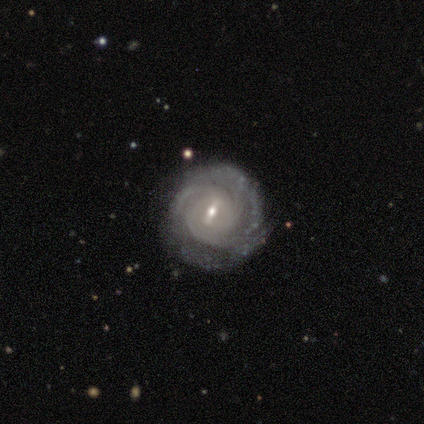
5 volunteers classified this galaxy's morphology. type=featured or disk (100%); edge-on=no (100%); bar=weak (80%); spiral arms=yes (100%); winding=tight (80%); arm count=can't tell (60%); bulge=small (100%); merging=none (100%).